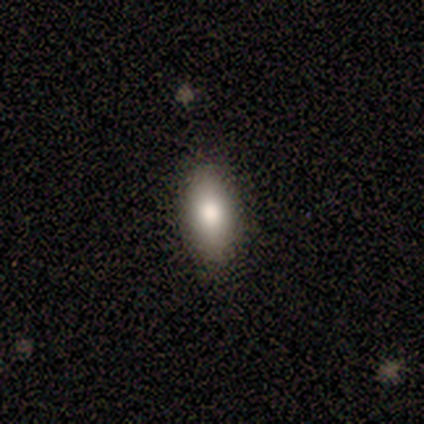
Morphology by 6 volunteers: A smooth galaxy with no disk features (83%) that is in between round and cigar-shaped (100%).

Vote fractions:
- Smooth or featured? smooth: 83% / featured or disk: 17% / star or artifact: 0%
- How rounded? in between: 100% / round: 0% / cigar-shaped: 0%
- Merging? none: 83% / minor disturbance: 17% / major disturbance: 0% / merger: 0%